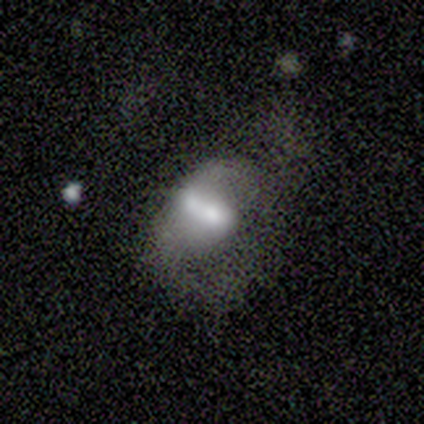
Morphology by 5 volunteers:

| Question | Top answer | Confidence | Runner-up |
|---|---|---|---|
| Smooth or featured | smooth | 60% | featured or disk (40%) |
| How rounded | in between | 100% | — |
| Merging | major disturbance | 40% | tied: merger (40%) |